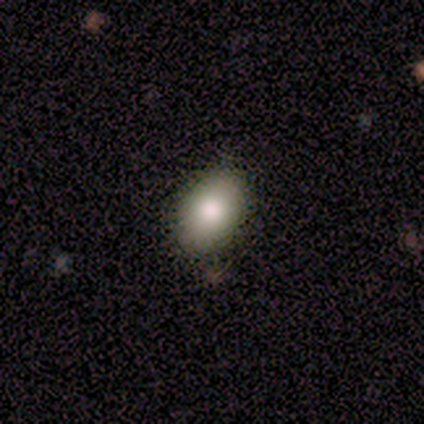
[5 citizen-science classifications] smooth 80%, star or artifact 20%, featured or disk 0%. Down the decision tree: how rounded — in between (75%); merging — none (100%).